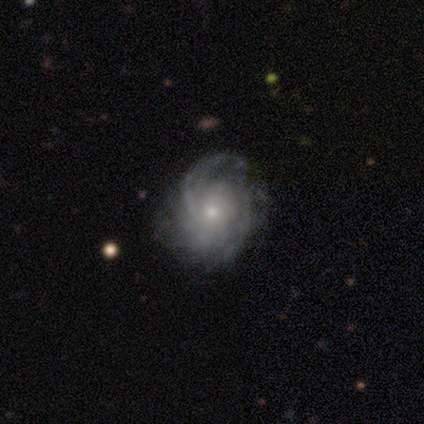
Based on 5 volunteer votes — This is clearly a featured or disk galaxy (100%). It is clearly not viewed edge-on (100%). Bar: likely no (60%). Spiral arm pattern: clearly yes (100%). Spiral arm count: clearly can't tell (80%). Spiral winding: likely loose (60%). Central bulge: likely small (60%). Merging: likely none (60%).